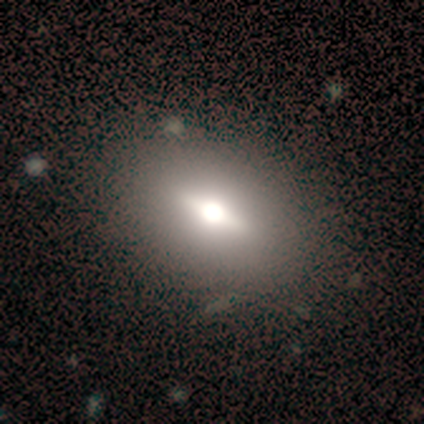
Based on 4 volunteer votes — Smooth or featured?
  - featured or disk: 75% *
  - smooth: 25%
  - star or artifact: 0%
Edge-on disk?
  - no: 67% *
  - yes: 33%
Bar?
  - strong: 50% * (tied)
  - no: 50% * (tied)
  - weak: 0%
Spiral arms?
  - no: 100% *
  - yes: 0%
Bulge size?
  - moderate: 100% *
  - dominant: 0%
  - large: 0%
  - small: 0%
  - none: 0%
Merging?
  - none: 75% *
  - major disturbance: 25%
  - minor disturbance: 0%
  - merger: 0%